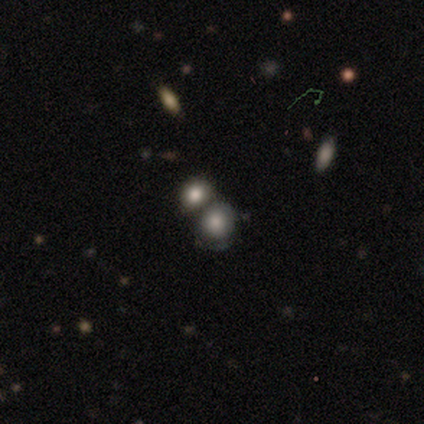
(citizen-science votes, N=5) smooth 100%, featured or disk 0%, star or artifact 0%. Down the decision tree: how rounded — round (80%); merging — minor disturbance (40%).